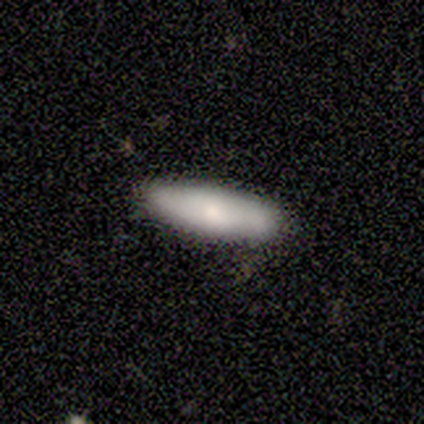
Q: Smooth or featured?
A: smooth (80%); runner-up: star or artifact (20%)
Q: How rounded?
A: in between (50%); tied with: cigar-shaped (50%)
Q: Merging?
A: none (100%)